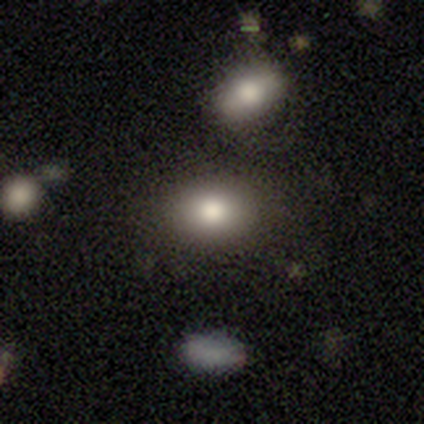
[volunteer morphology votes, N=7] Smooth or featured?
  - smooth: 71% *
  - featured or disk: 14%
  - star or artifact: 14%
How rounded?
  - in between: 80% *
  - round: 20%
  - cigar-shaped: 0%
Merging?
  - none: 100% *
  - minor disturbance: 0%
  - major disturbance: 0%
  - merger: 0%